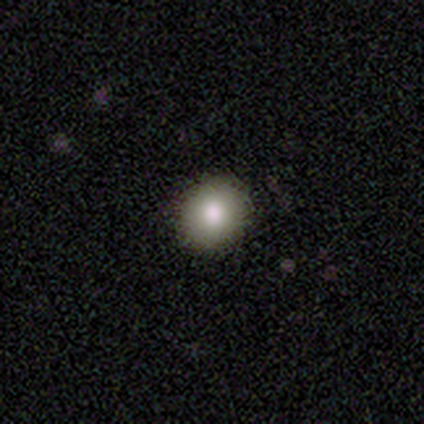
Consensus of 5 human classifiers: Overall: smooth (80%). How rounded: round (100%). Merging: none (100%).